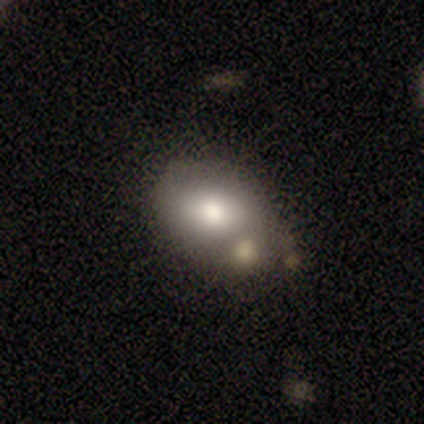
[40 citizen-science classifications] Smooth or featured?
  - smooth: 65% *
  - featured or disk: 32%
  - star or artifact: 2%
How rounded?
  - in between: 85% *
  - round: 15%
  - cigar-shaped: 0%
Merging?
  - none: 44% *
  - merger: 36%
  - minor disturbance: 18%
  - major disturbance: 3%